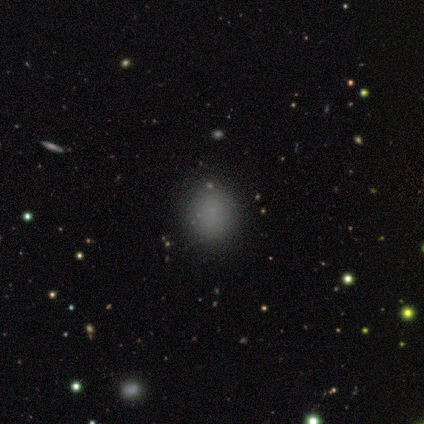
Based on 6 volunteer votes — Morphology: type=smooth (83%); roundness=round (80%); merging=none (100%).